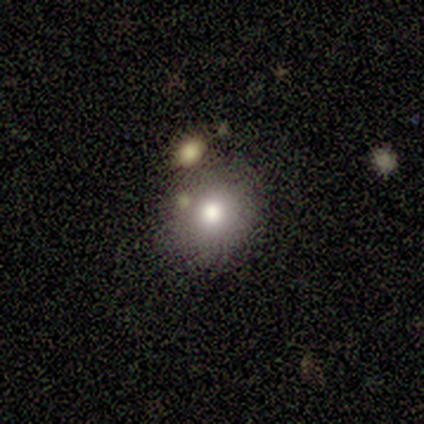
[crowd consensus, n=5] This appears to be a smooth galaxy with no disk features (40%, tied with star or artifact) that is round (100%). Merging: none (67%).